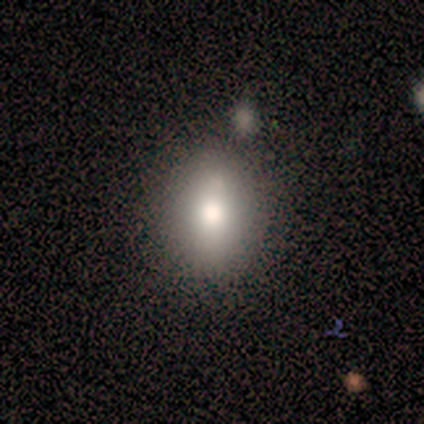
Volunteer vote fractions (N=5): Volunteers were most divided on "how rounded": in between: 75%, round: 25%, cigar-shaped: 0%. More confident: merging — none (100%); smooth or featured — smooth (80%).